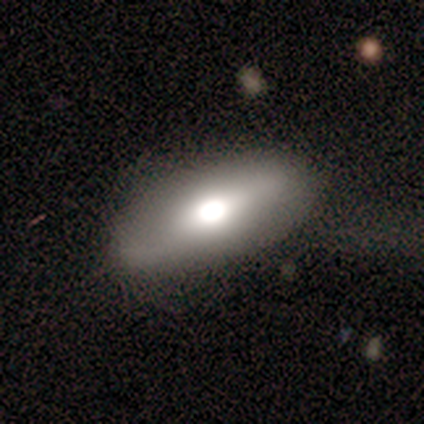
Overall: smooth (100%). How rounded: in between (100%). Merging: none (80%).